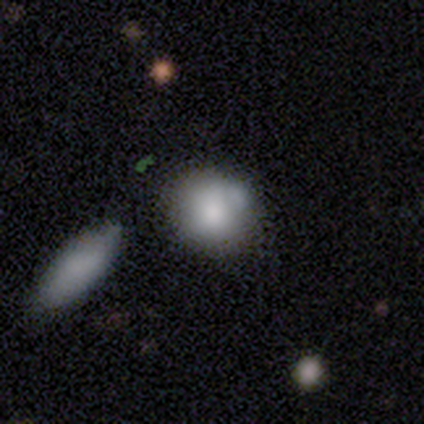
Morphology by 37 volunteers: This appears to be a smooth galaxy with no disk features (78%) that is round (72%). Merging: none (54%).